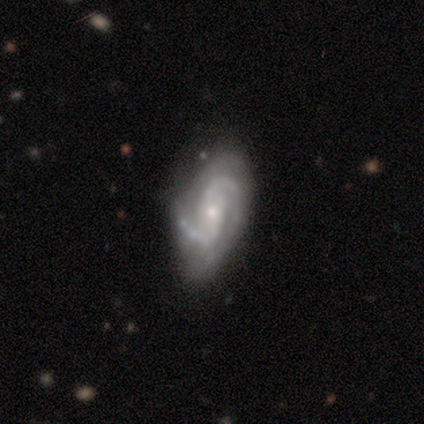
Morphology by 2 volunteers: Smooth or featured? featured or disk (100%)
Edge-on disk? no (100%)
Bar? weak (50%, tied with no)
Spiral arms? yes (100%)
Spiral winding? tight (50%, tied with medium)
Spiral arm count? 2 (50%, tied with 3)
Bulge size? small (100%)
Merging? none (50%, tied with minor disturbance)